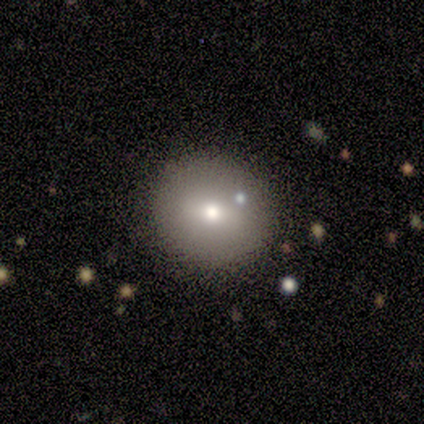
Smooth or featured? smooth (50%, tied with featured or disk)
How rounded? round (100%)
Merging? none (100%)